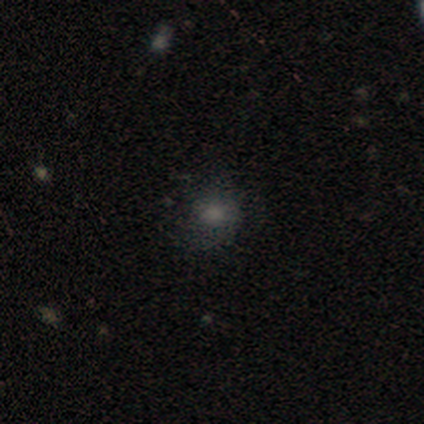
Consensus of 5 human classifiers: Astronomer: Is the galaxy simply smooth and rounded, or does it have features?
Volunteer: smooth — 80%.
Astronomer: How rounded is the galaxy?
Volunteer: round — 50%, tied with in between at 50%.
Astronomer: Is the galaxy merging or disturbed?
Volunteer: none — 80%.